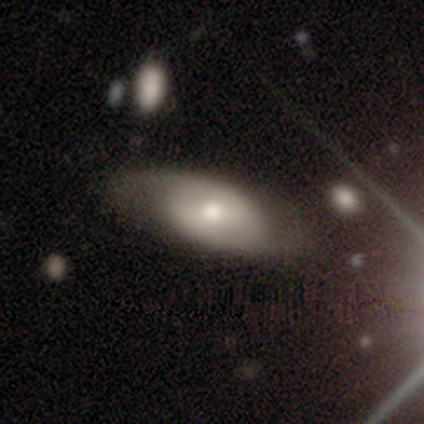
Volunteers were most divided on "bar": weak: 44%, no: 42%, strong: 13%. Remaining: edge-on disk — no (96%); spiral arm count — 2 (81%); spiral arms — yes (69%); bulge size — moderate (64%); smooth or featured — featured or disk (59%); spiral winding — medium (45%); merging — none (37%).